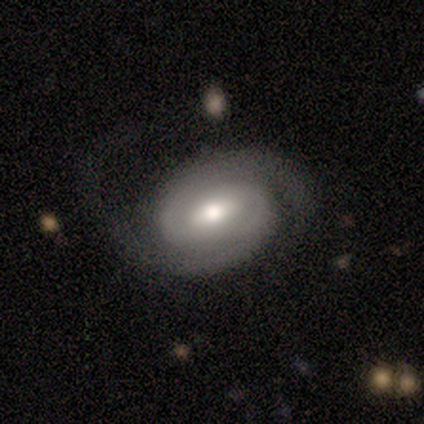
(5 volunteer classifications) This appears to be a featured or disk galaxy (80%) with a weak bar (50%, tied with no), 2 (100%) tight (100%) spiral arms (100%) and a moderate central bulge (75%). Merging: none (80%).